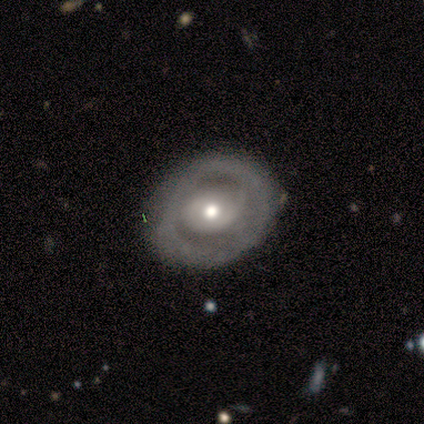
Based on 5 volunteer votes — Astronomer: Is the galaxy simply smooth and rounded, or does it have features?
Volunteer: smooth — 60% (runner-up: featured or disk, 40%).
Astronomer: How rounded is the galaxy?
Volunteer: in between — 100%.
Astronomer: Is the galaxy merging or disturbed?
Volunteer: none — 60% (runner-up: minor disturbance, 40%).